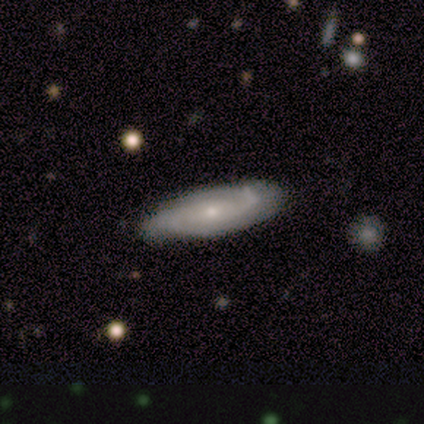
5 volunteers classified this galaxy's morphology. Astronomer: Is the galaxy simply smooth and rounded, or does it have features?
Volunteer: featured or disk — 60% (runner-up: smooth, 40%).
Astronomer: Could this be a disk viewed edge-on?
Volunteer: no — 67%.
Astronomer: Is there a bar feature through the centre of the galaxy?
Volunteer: weak — 50%, tied with no at 50%.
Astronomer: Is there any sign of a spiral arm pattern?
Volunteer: yes — 100%.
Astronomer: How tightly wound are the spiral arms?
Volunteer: tight — 100%.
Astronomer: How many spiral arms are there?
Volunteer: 2 — 50%, tied with 3 at 50%.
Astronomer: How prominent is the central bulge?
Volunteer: moderate — 50%, tied with small at 50%.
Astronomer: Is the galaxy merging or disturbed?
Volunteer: none — 80%.